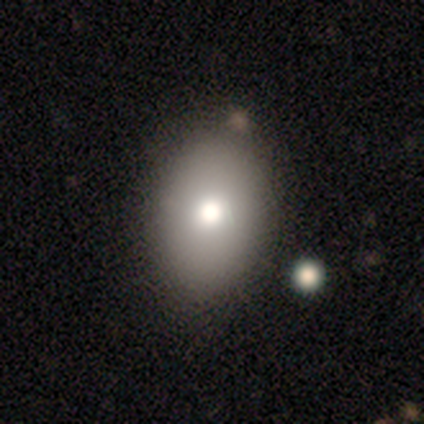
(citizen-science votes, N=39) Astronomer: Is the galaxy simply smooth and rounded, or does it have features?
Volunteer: smooth — 79%.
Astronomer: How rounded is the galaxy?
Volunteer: in between — 84%.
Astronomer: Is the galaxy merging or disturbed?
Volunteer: none — 71%.